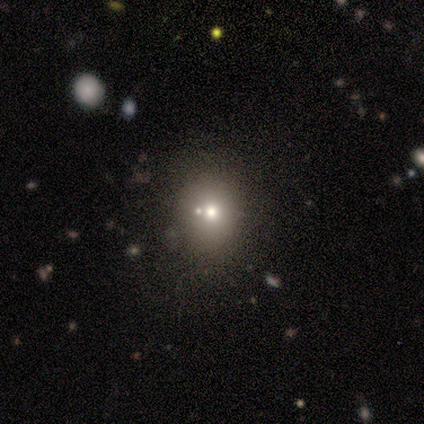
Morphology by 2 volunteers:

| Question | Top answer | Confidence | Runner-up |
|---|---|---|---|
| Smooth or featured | featured or disk | 50% | tied: star or artifact (50%) |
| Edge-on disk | no | 100% | — |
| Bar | no | 100% | — |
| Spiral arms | no | 100% | — |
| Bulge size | moderate | 100% | — |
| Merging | minor disturbance | 100% | — |